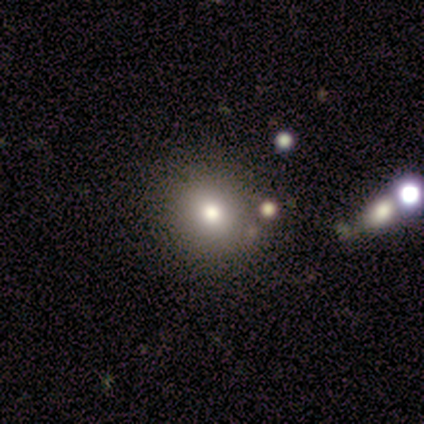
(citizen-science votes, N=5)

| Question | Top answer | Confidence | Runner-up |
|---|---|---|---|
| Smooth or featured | smooth | 40% | tied: star or artifact (40%) |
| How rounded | round | 100% | — |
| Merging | none | 67% | minor disturbance (33%) |